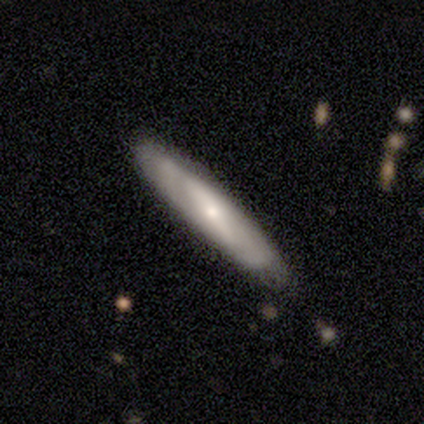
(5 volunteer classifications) Q: Smooth or featured?
A: featured or disk (40%); tied with: star or artifact (40%)
Q: Edge-on disk?
A: yes (100%)
Q: Edge-on bulge?
A: none (50%); tied with: rounded (50%)
Q: Merging?
A: none (100%)